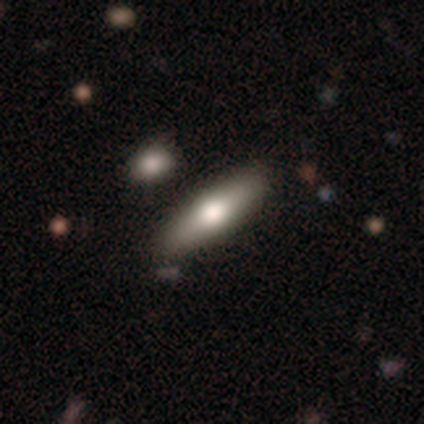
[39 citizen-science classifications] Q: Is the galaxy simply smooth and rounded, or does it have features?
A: smooth — 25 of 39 (64%).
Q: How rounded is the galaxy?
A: cigar-shaped — 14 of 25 (56%).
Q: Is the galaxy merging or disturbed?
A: none — 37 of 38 (97%).